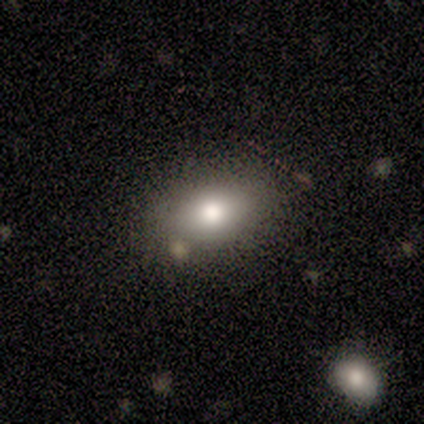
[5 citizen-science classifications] Q: Smooth or featured?
A: smooth (80%); runner-up: featured or disk (20%)
Q: How rounded?
A: in between (100%)
Q: Merging?
A: none (80%); runner-up: minor disturbance (20%)